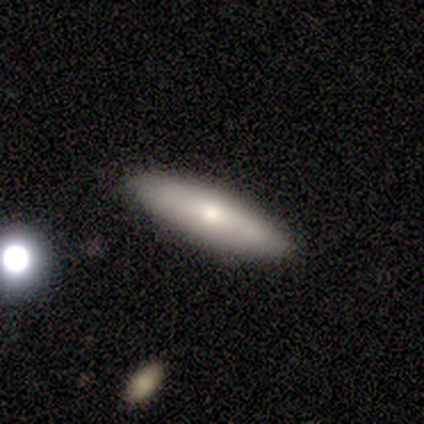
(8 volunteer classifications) Overall: smooth (100%). How rounded: in between (50%, tied with cigar-shaped). Merging: none (88%).